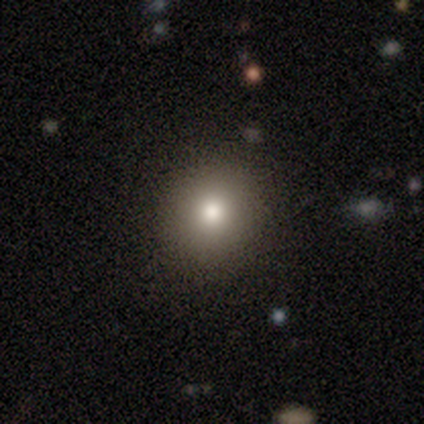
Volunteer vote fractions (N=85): Smooth or featured? 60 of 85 (71%) said smooth. How rounded? 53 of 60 (88%) said round. Merging? 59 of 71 (83%) said none.